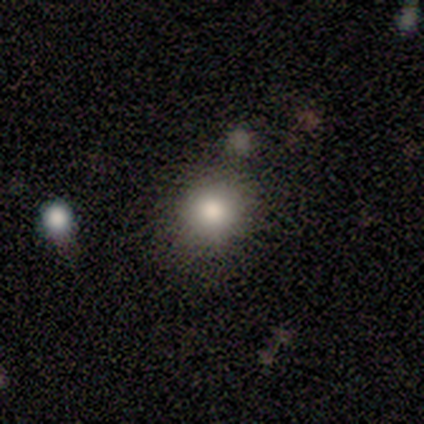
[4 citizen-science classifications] Morphology: type=smooth (100%); roundness=round (75%); merging=none (50%, tied with minor disturbance).